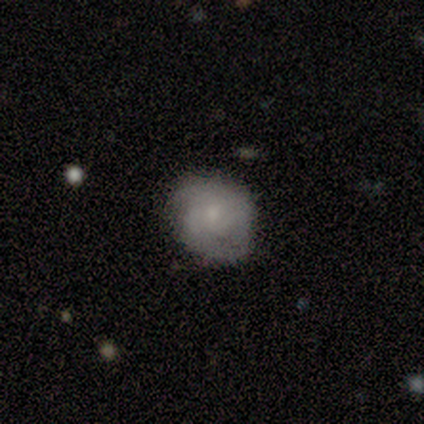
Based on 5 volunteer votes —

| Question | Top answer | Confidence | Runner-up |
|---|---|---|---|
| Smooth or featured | smooth | 60% | featured or disk (40%) |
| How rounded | in between | 67% | round (33%) |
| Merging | none | 60% | minor disturbance (40%) |